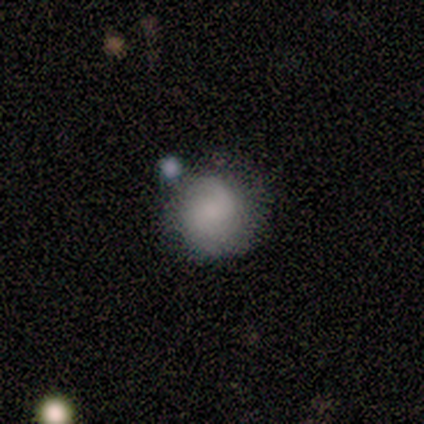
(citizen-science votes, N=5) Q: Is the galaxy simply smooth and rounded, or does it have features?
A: smooth — 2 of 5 (40%, tied with star or artifact).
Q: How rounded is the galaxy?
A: round — 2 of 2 (100%).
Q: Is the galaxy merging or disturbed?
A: none — 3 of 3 (100%).